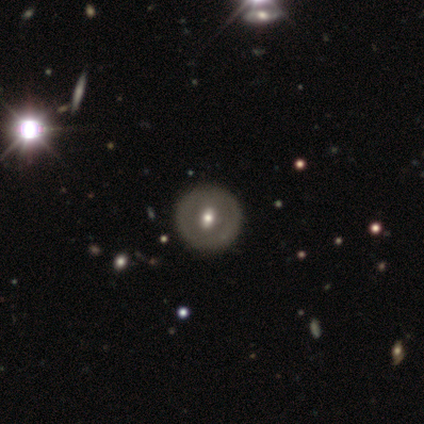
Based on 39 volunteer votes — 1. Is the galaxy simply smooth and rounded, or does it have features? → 51% featured or disk, 49% smooth, 0% star or artifact.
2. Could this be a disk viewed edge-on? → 100% no, 0% yes.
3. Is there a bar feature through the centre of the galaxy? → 40% no, 35% weak, 25% strong.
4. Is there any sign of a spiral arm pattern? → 85% no, 15% yes.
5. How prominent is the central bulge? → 60% moderate, 35% small, 5% dominant, 0% large, 0% none.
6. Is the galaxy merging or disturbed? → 64% none, 0% minor disturbance, 0% major disturbance, 0% merger.